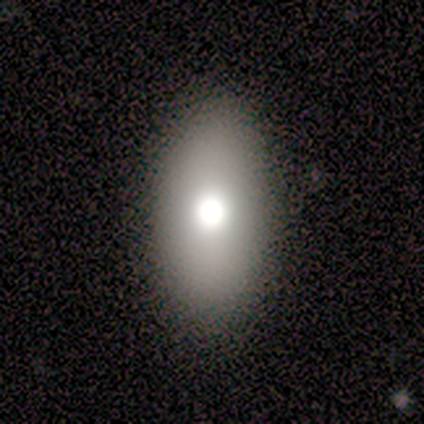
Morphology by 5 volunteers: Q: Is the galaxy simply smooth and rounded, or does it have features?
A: smooth — 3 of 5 (60%).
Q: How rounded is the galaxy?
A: in between — 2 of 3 (67%).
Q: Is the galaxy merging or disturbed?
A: none — 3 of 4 (75%).